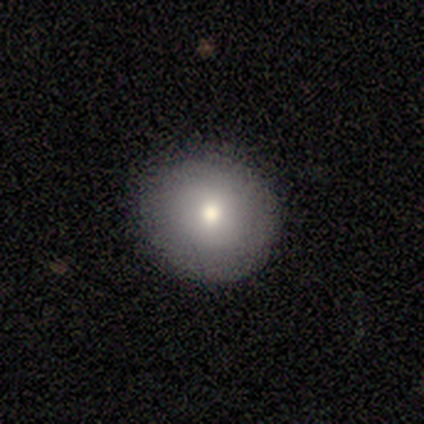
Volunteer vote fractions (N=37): smooth 76%, featured or disk 16%, star or artifact 8%. Down the decision tree: how rounded — round (89%); merging — none (91%).